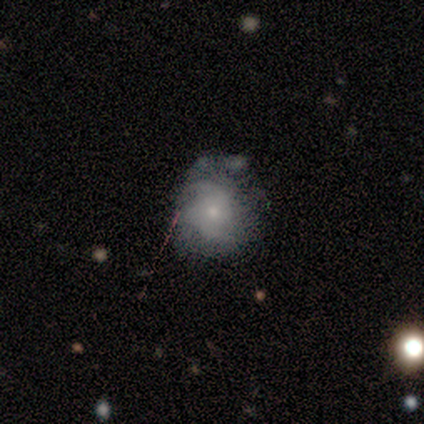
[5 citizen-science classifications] Morphology: type=smooth (40%, tied with featured or disk); roundness=round (100%); merging=none (100%).